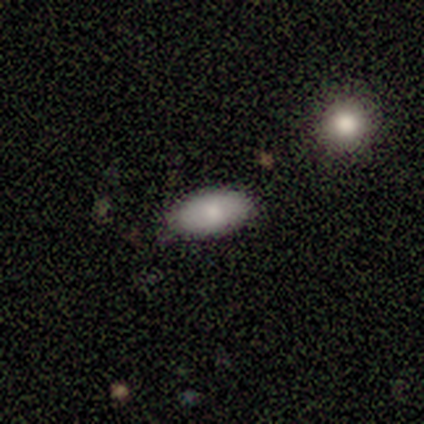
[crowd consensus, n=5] Smooth or featured?
  - smooth: 100% *
  - featured or disk: 0%
  - star or artifact: 0%
How rounded?
  - in between: 100% *
  - round: 0%
  - cigar-shaped: 0%
Merging?
  - none: 100% *
  - minor disturbance: 0%
  - major disturbance: 0%
  - merger: 0%